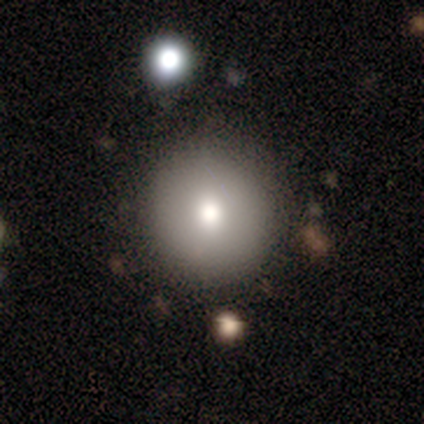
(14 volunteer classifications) smooth_or_featured: smooth (p=0.71) [alt: featured or disk p=0.14]
how_rounded: round (p=1.00)
merging: none (p=0.83) [alt: minor disturbance p=0.08]